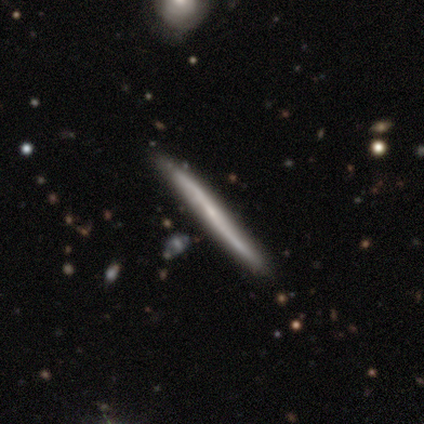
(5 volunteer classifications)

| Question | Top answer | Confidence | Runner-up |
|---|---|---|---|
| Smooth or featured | featured or disk | 60% | smooth (40%) |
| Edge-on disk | yes | 100% | — |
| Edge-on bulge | none | 100% | — |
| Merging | none | 80% | minor disturbance (20%) |